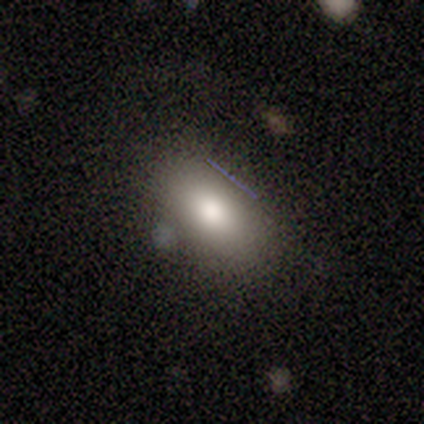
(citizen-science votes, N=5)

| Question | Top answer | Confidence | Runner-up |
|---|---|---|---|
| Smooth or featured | smooth | 100% | — |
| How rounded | in between | 60% | cigar-shaped (40%) |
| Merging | none | 100% | — |